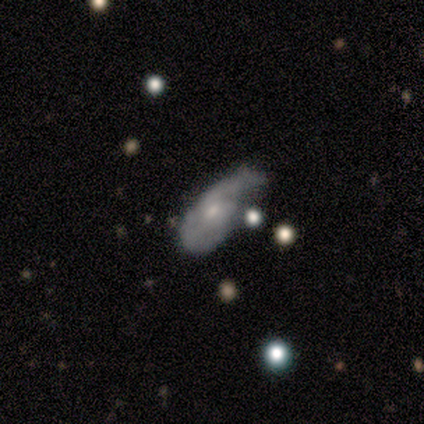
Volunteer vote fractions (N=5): smooth_or_featured: featured or disk (p=0.60) [alt: smooth p=0.40]
disk_edge_on: no (p=0.67) [alt: yes p=0.33]
bar: no (p=1.00)
has_spiral_arms: yes (p=1.00)
spiral_winding: medium (p=1.00)
spiral_arm_count: 1 (p=0.50) [tied with: 2 p=0.50]
bulge_size: moderate (p=0.50) [tied with: small p=0.50]
merging: minor disturbance (p=0.40) [alt: none p=0.20]